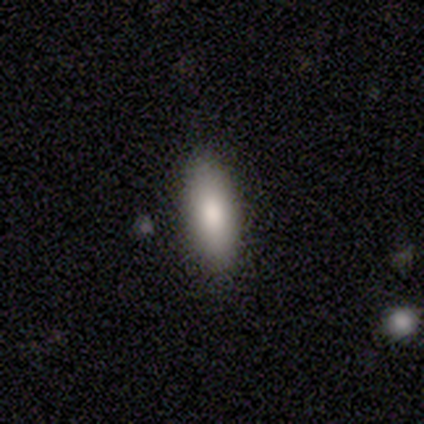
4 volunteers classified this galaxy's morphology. Smooth or featured: smooth — 100%
How rounded: in between — 50% (tied with cigar-shaped — 50%)
Merging: none — 100%